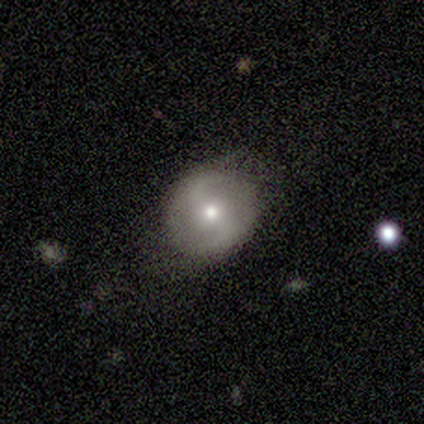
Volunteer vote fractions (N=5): A smooth galaxy with no disk features (60%) that is round (100%).

Vote fractions:
- Smooth or featured? smooth: 60% / featured or disk: 40% / star or artifact: 0%
- How rounded? round: 100% / in between: 0% / cigar-shaped: 0%
- Merging? minor disturbance: 60% / none: 40% / major disturbance: 0% / merger: 0%